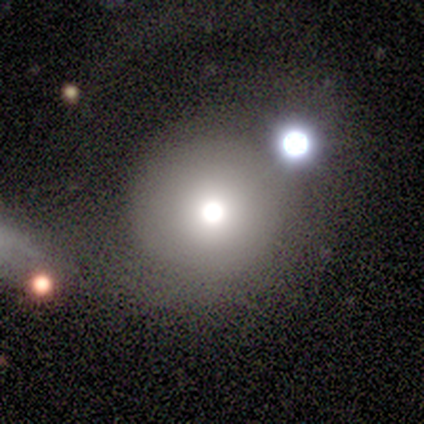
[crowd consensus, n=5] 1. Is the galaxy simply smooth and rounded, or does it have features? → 80% smooth, 20% featured or disk, 0% star or artifact.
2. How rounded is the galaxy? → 75% round, 25% in between, 0% cigar-shaped.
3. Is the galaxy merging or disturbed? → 40% none (tied), 40% major disturbance (tied), 20% minor disturbance, 0% merger.